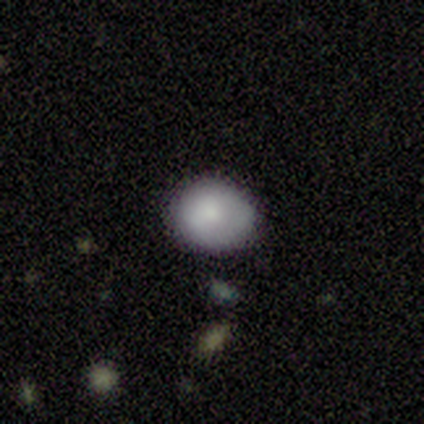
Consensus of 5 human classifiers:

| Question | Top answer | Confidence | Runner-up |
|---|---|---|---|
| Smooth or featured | smooth | 100% | — |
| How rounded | round | 80% | in between (20%) |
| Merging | none | 80% | minor disturbance (20%) |